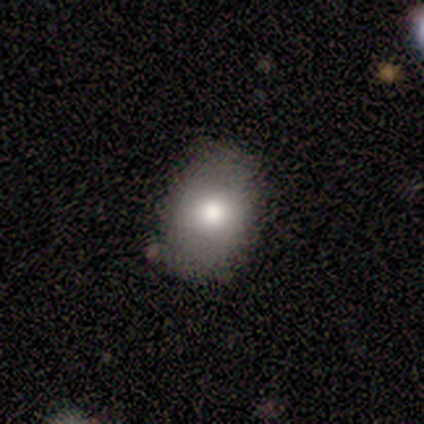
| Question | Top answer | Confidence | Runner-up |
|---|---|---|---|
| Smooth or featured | smooth | 89% | featured or disk (11%) |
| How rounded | in between | 88% | round (12%) |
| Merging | none | 100% | — |